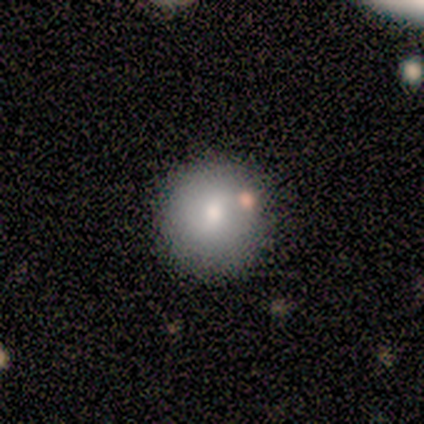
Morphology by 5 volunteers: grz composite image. It shows a smooth galaxy with no disk features (100%) that is round (100%). Merging: none (80%).